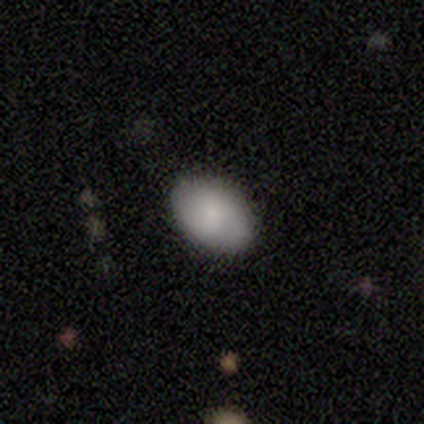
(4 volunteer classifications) Smooth or featured? smooth (100%)
How rounded? in between (100%)
Merging? none (100%)